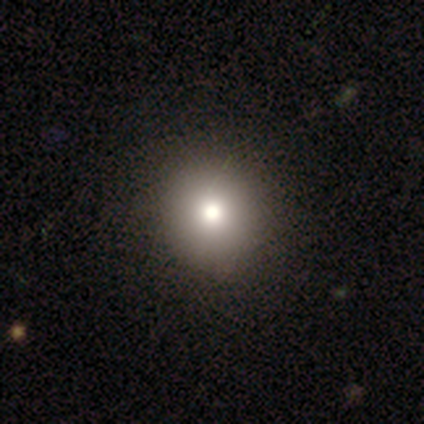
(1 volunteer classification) smooth_or_featured: smooth (p=1.00)
how_rounded: round (p=1.00)
merging: none (p=1.00)